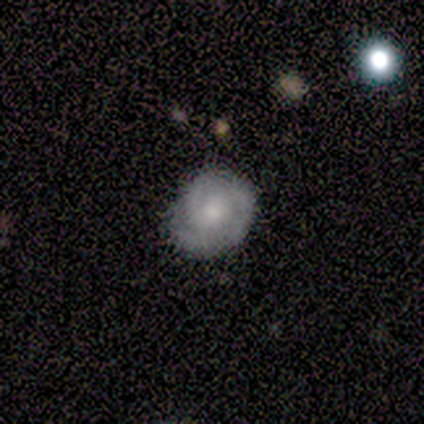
Smooth or featured?
  - featured or disk: 50% *
  - smooth: 25%
  - star or artifact: 25%
Edge-on disk?
  - no: 100% *
  - yes: 0%
Bar?
  - no: 100% *
  - strong: 0%
  - weak: 0%
Spiral arms?
  - yes: 100% *
  - no: 0%
Spiral winding?
  - tight: 100% *
  - medium: 0%
  - loose: 0%
Spiral arm count?
  - 1: 50% * (tied)
  - 3: 50% * (tied)
  - 2: 0%
  - 4: 0%
  - more than 4: 0%
  - can't tell: 0%
Bulge size?
  - moderate: 50% * (tied)
  - small: 50% * (tied)
  - dominant: 0%
  - large: 0%
  - none: 0%
Merging?
  - minor disturbance: 67% *
  - none: 33%
  - major disturbance: 0%
  - merger: 0%